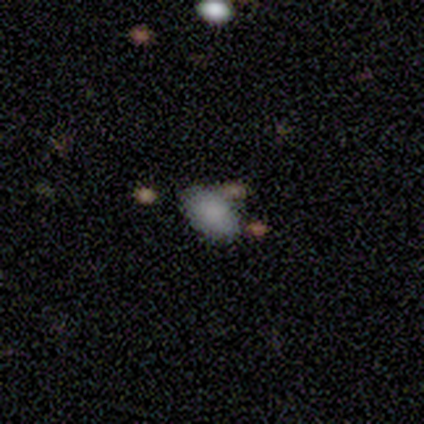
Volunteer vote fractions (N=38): This is likely a smooth galaxy (79%). How rounded: clearly in between (90%). Merging: likely none (74%).